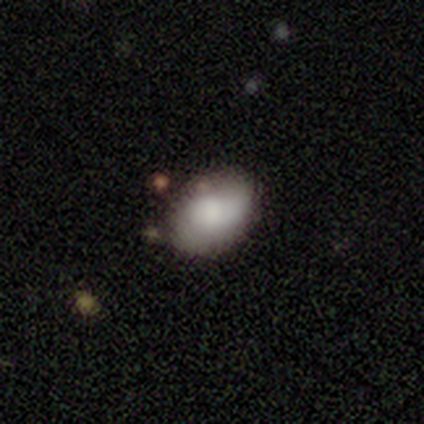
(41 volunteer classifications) smooth_or_featured: smooth (p=0.80) [alt: featured or disk p=0.17]
how_rounded: in between (p=0.91) [alt: round p=0.09]
merging: none (p=0.78) [alt: minor disturbance p=0.15]